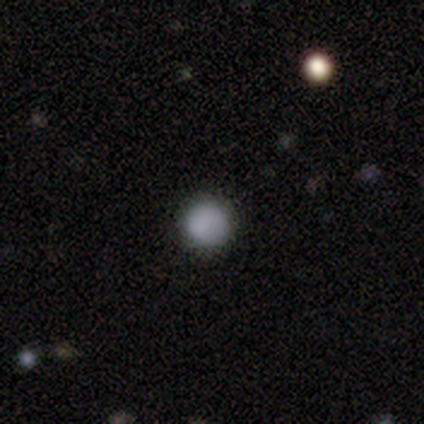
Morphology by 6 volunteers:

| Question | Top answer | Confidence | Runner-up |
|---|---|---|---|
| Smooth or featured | smooth | 83% | star or artifact (17%) |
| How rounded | round | 100% | — |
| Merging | none | 100% | — |